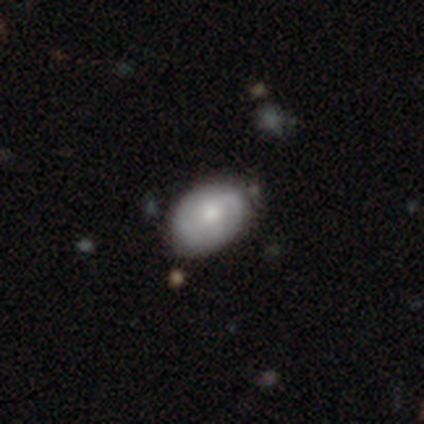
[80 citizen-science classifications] This is possibly a featured or disk galaxy (56%). It is clearly not viewed edge-on (98%). Bar: clearly no (84%). Spiral arm pattern: likely yes (70%). Spiral arm count: marginally 2 (39%, tied with can't tell). Spiral winding: marginally medium (39%). Central bulge: possibly small (55%). Merging: possibly none (47%).